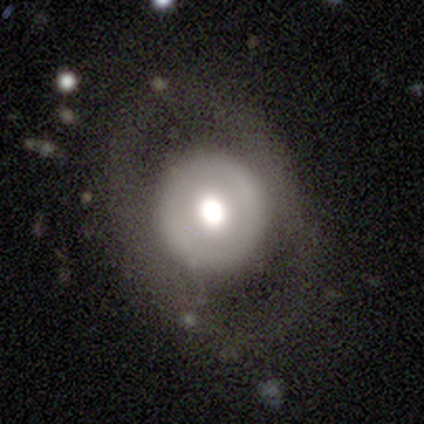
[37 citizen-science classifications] smooth 51%, featured or disk 43%, star or artifact 5%. Down the decision tree: how rounded — round (95%); merging — none (74%).